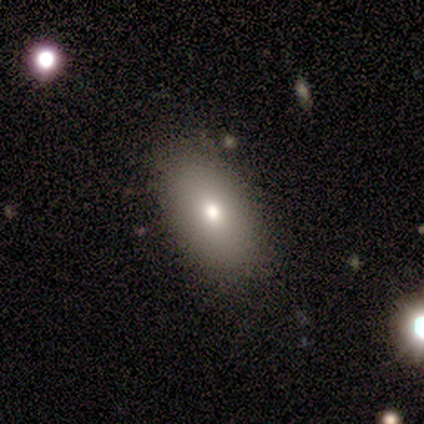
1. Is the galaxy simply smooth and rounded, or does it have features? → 100% smooth, 0% featured or disk, 0% star or artifact.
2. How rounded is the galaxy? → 100% in between, 0% round, 0% cigar-shaped.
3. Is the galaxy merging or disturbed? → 100% none, 0% minor disturbance, 0% major disturbance, 0% merger.